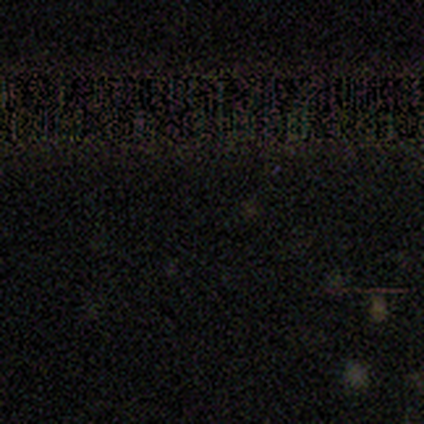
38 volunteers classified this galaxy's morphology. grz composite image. It shows a star or artifact, not a galaxy (82%).